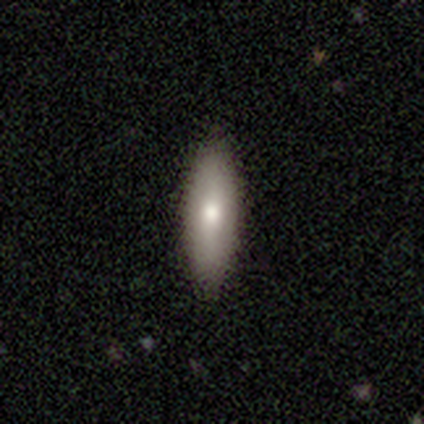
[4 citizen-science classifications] smooth-or-featured: smooth: 75% | featured or disk: 25% | star or artifact: 0%
  how-rounded: in between: 67% | cigar-shaped: 33% | round: 0%
  merging: none: 100% | minor disturbance: 0% | major disturbance: 0% | merger: 0%